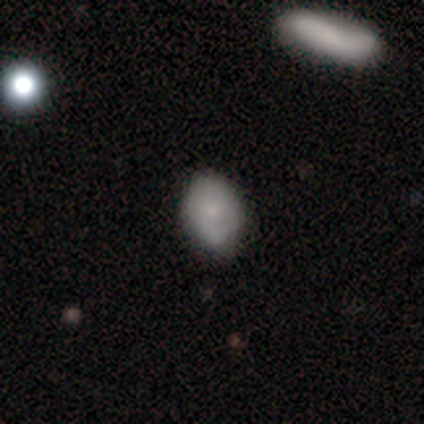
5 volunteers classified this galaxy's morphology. Overall: smooth (80%). How rounded: round (50%, tied with in between). Merging: none (80%).